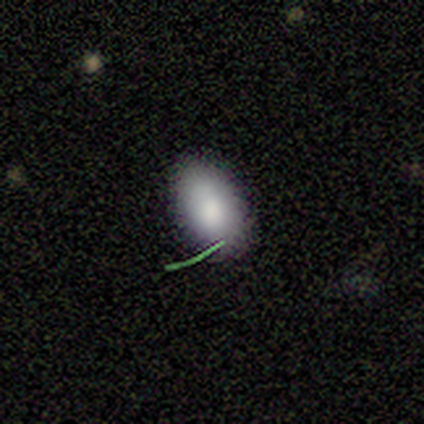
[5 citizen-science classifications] This is clearly a smooth galaxy (100%). How rounded: likely in between (60%). Merging: clearly none (100%).